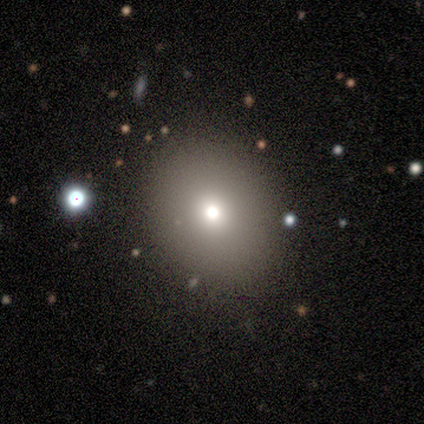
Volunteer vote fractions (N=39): smooth_or_featured: smooth (p=0.69) [alt: featured or disk p=0.18]
how_rounded: round (p=0.67) [alt: in between p=0.33]
merging: none (p=0.88) [alt: minor disturbance p=0.06]